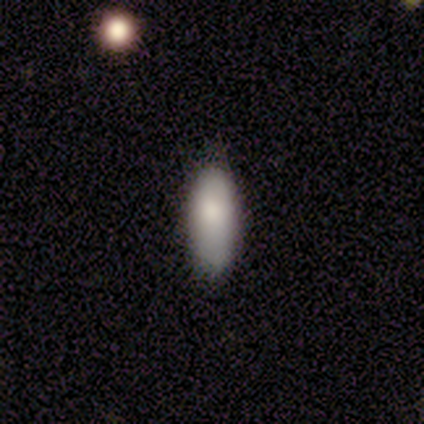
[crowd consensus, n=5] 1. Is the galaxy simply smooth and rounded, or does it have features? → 100% smooth, 0% featured or disk, 0% star or artifact.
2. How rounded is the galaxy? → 60% in between, 40% cigar-shaped, 0% round.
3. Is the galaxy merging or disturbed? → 80% none, 20% minor disturbance, 0% major disturbance, 0% merger.